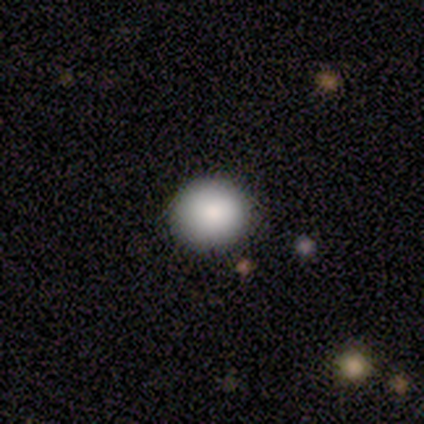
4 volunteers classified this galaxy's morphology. type=smooth (75%); roundness=round (100%); merging=none (100%).